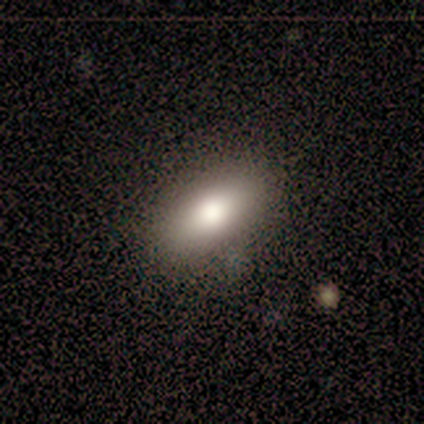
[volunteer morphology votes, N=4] Smooth or featured: smooth — 100%
How rounded: in between — 100%
Merging: none — 100%